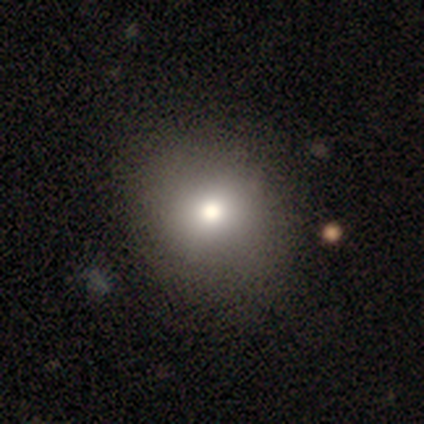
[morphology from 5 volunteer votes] smooth-or-featured: smooth: 80% | star or artifact: 20% | featured or disk: 0%
  how-rounded: round: 75% | in between: 25% | cigar-shaped: 0%
  merging: none: 100% | minor disturbance: 0% | major disturbance: 0% | merger: 0%